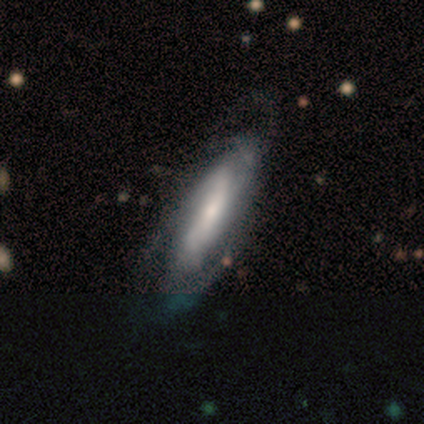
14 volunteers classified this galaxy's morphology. Volunteers were most divided on "bulge size" (2-way tie): large: 40%, moderate: 40%, small: 20%, dominant: 0%, none: 0%. More confident: spiral arms — yes (100%); smooth or featured — featured or disk (93%); edge-on disk — no (77%); bar — strong (70%); spiral winding — medium (70%); spiral arm count — 2 (60%); merging — none (50%).